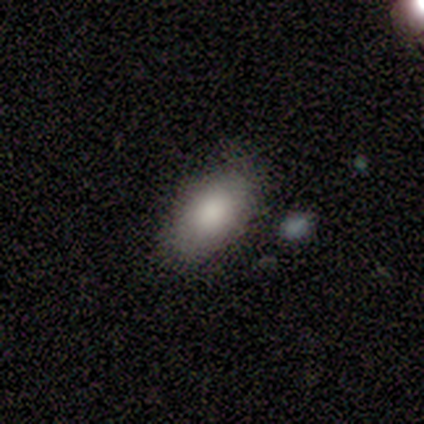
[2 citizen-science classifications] smooth 50% (tied), featured or disk 50% (tied), star or artifact 0%. Down the decision tree: how rounded — in between (100%); merging — none (50%, tied with minor disturbance).